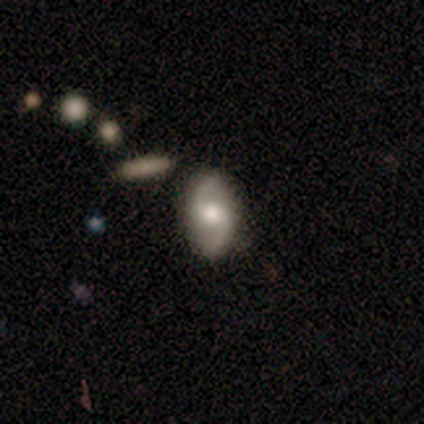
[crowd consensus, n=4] Smooth or featured: featured or disk — 75% (smooth — 25%)
Edge-on disk: no — 100%
Bar: no — 100%
Spiral arms: yes — 100%
Spiral winding: loose — 67% (tight — 33%)
Spiral arm count: 2 — 100%
Bulge size: moderate — 100%
Merging: none — 75% (major disturbance — 25%)